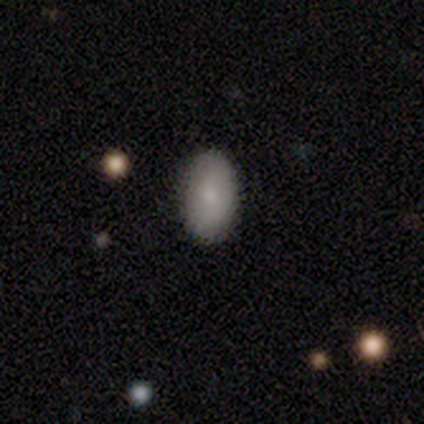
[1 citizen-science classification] smooth 100%, featured or disk 0%, star or artifact 0%. Down the decision tree: how rounded — in between (100%); merging — minor disturbance (100%).